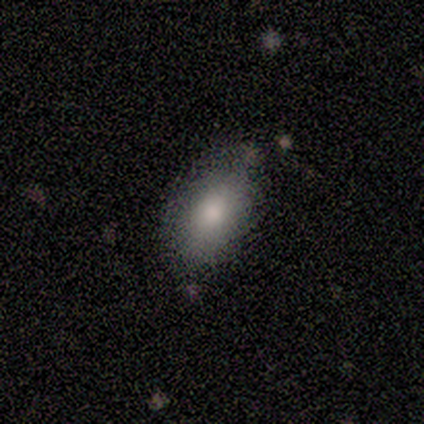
Volunteers were most divided on "how rounded": in between: 80%, round: 20%, cigar-shaped: 0%. More confident: smooth or featured — smooth (100%); merging — none (100%).